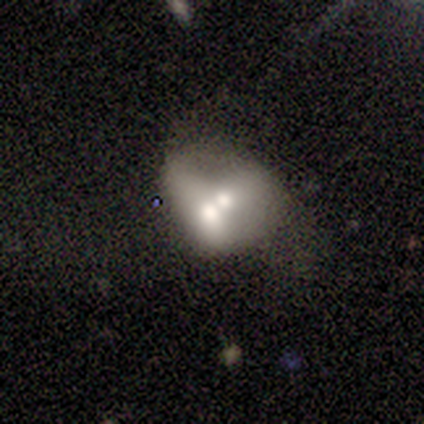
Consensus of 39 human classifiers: Volunteers were most divided on "smooth or featured": featured or disk: 51%, smooth: 41%, star or artifact: 8%. More confident: edge-on disk — no (100%); bar — no (100%); spiral arms — no (100%); merging — merger (78%); bulge size — moderate (65%).